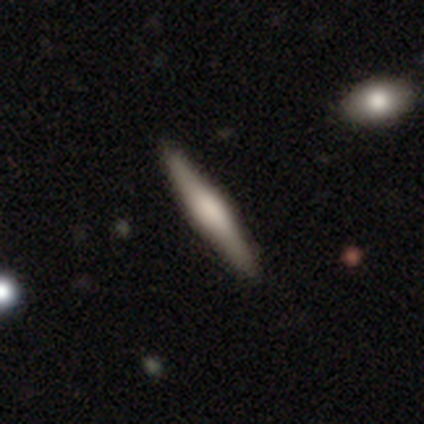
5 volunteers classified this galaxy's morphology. Volunteers were most divided on "smooth or featured": smooth: 60%, featured or disk: 40%, star or artifact: 0%. More confident: how rounded — cigar-shaped (100%); merging — none (100%).